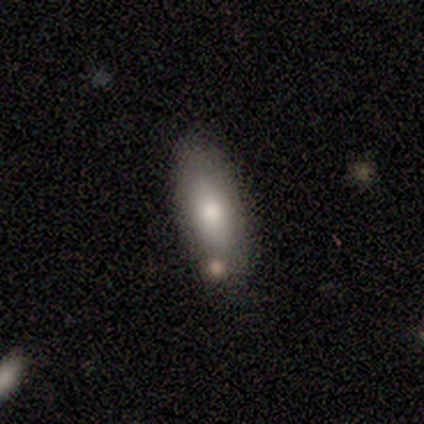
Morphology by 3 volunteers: This appears to be a smooth galaxy with no disk features (100%) that is in between round and cigar-shaped (100%). Merging: minor disturbance (67%).